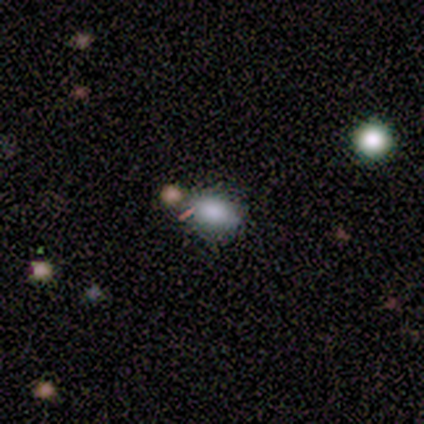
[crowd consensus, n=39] Smooth or featured? smooth (72%)
How rounded? in between (75%)
Merging? none (74%)